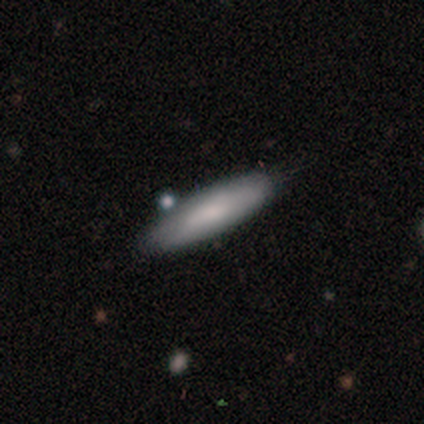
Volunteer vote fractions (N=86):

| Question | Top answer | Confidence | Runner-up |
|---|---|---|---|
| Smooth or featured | smooth | 77% | featured or disk (19%) |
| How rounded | cigar-shaped | 65% | in between (35%) |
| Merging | none | 84% | minor disturbance (12%) |